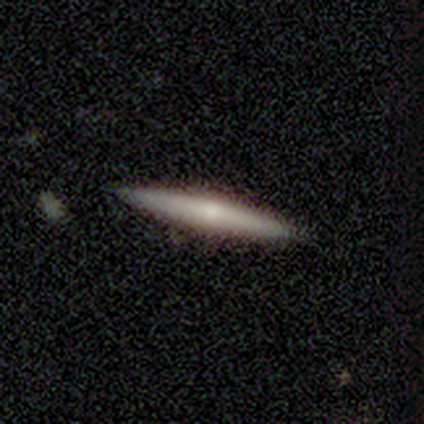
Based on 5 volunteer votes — This is likely a featured or disk galaxy (60%). It is clearly viewed edge-on (100%). Edge-on bulge: clearly rounded (100%). Merging: clearly none (80%).